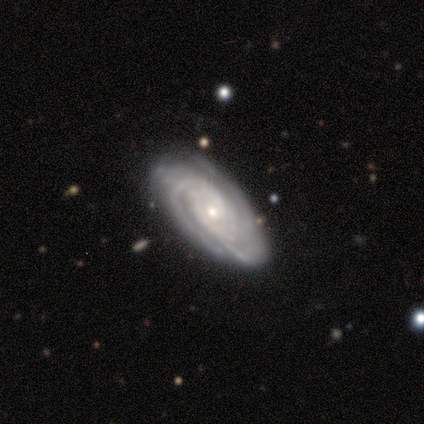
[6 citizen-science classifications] Morphology: type=featured or disk (100%); edge-on=no (100%); bar=no (83%); spiral arms=yes (100%); winding=tight (100%); arm count=3 (50%); bulge=small (100%); merging=none (100%).